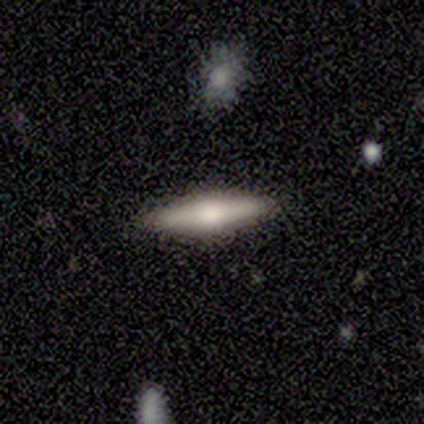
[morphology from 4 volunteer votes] Smooth or featured?
  - smooth: 50% * (tied)
  - featured or disk: 50% * (tied)
  - star or artifact: 0%
How rounded?
  - cigar-shaped: 100% *
  - round: 0%
  - in between: 0%
Merging?
  - none: 100% *
  - minor disturbance: 0%
  - major disturbance: 0%
  - merger: 0%